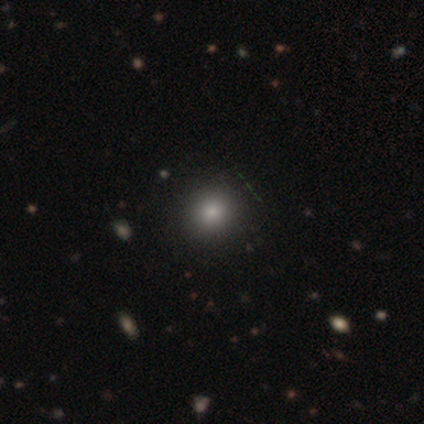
A smooth galaxy with no disk features (60%) that is round (67%). Merging: none (75%).